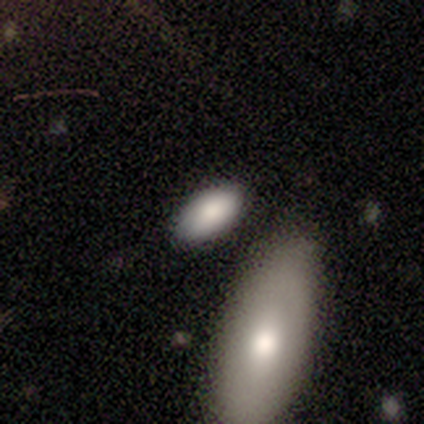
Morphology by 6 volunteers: This appears to be a smooth galaxy with no disk features (83%) that is in between round and cigar-shaped (80%). Merging: none (100%).